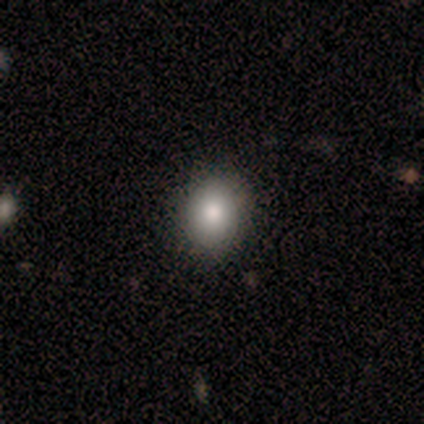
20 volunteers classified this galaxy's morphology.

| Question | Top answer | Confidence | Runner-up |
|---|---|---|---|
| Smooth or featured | smooth | 80% | star or artifact (15%) |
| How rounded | round | 56% | in between (44%) |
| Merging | none | 88% | minor disturbance (12%) |